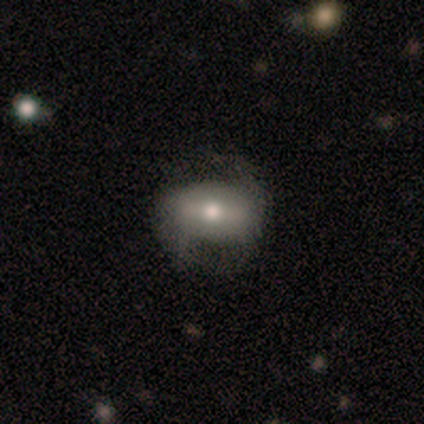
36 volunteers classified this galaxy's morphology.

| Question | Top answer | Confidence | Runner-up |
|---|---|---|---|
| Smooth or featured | featured or disk | 50% | smooth (39%) |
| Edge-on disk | no | 89% | yes (11%) |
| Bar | strong | 44% | tied: weak (44%) |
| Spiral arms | yes | 81% | no (19%) |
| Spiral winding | loose | 85% | tight (15%) |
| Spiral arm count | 2 | 85% | can't tell (15%) |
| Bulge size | moderate | 75% | small (19%) |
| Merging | none | 50% | minor disturbance (31%) |